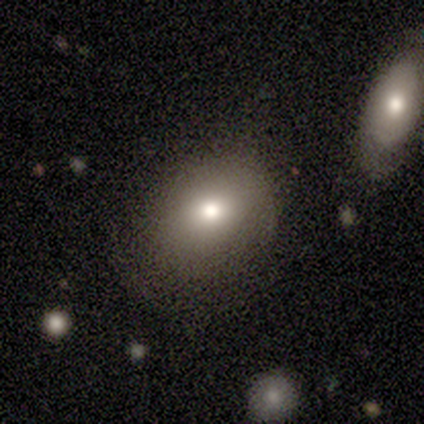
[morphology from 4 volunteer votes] Smooth or featured?
  - smooth: 50% *
  - featured or disk: 25%
  - star or artifact: 25%
How rounded?
  - in between: 100% *
  - round: 0%
  - cigar-shaped: 0%
Merging?
  - none: 33% * (tied)
  - minor disturbance: 33% * (tied)
  - merger: 33% * (tied)
  - major disturbance: 0%